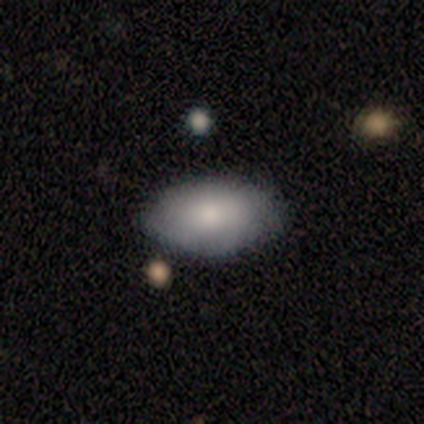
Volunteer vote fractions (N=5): Q: Smooth or featured?
A: smooth (80%); runner-up: star or artifact (20%)
Q: How rounded?
A: in between (100%)
Q: Merging?
A: none (100%)